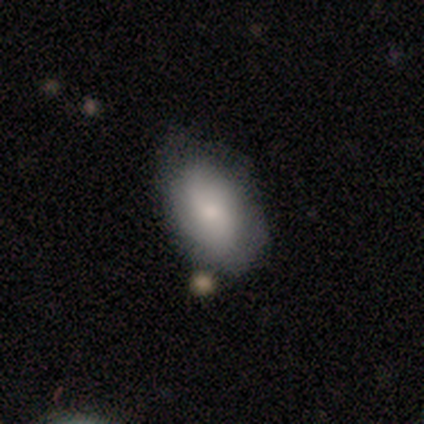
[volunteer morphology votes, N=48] Volunteers were most divided on "merging": none: 68%, minor disturbance: 26%, merger: 4%, major disturbance: 2%. More confident: how rounded — in between (87%); smooth or featured — smooth (81%).